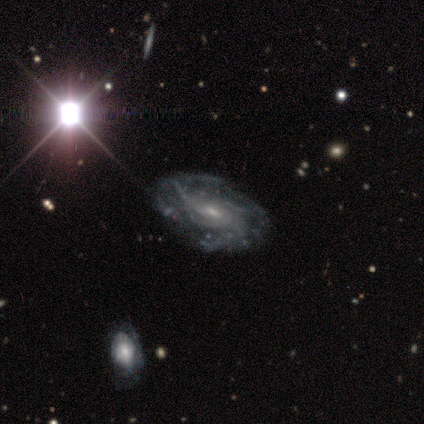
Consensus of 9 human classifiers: Smooth or featured? featured or disk (89%)
Edge-on disk? no (100%)
Bar? weak (75%)
Spiral arms? yes (100%)
Spiral winding? medium (50%)
Spiral arm count? can't tell (62%)
Bulge size? moderate (50%, tied with small)
Merging? none (88%)